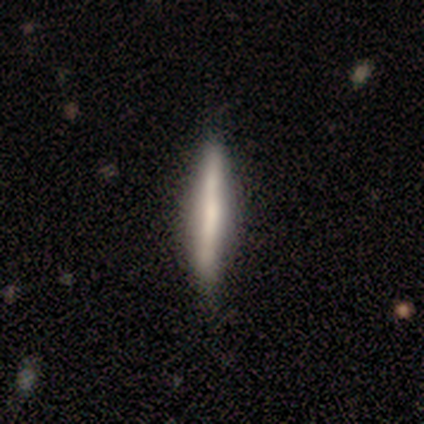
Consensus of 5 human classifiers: A featured or disk galaxy (60%) viewed edge-on (100%) with no central bulge (67%).

Vote fractions:
- Smooth or featured? featured or disk: 60% / smooth: 40% / star or artifact: 0%
- Edge-on disk? yes: 100% / no: 0%
- Edge-on bulge? none: 67% / boxy: 33% / rounded: 0%
- Merging? none: 80% / minor disturbance: 20% / major disturbance: 0% / merger: 0%